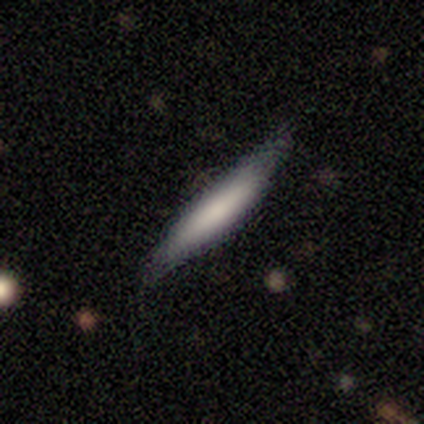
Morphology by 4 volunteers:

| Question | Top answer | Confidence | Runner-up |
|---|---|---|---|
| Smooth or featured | smooth | 75% | featured or disk (25%) |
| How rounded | cigar-shaped | 67% | in between (33%) |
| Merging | none | 100% | — |